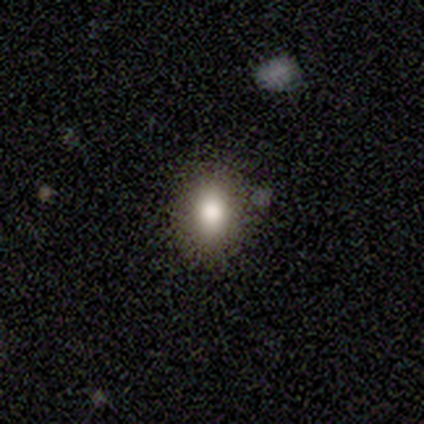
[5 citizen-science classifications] Smooth or featured? 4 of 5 (80%) said smooth. How rounded? 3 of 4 (75%) said in between. Merging? 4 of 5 (80%) said none.